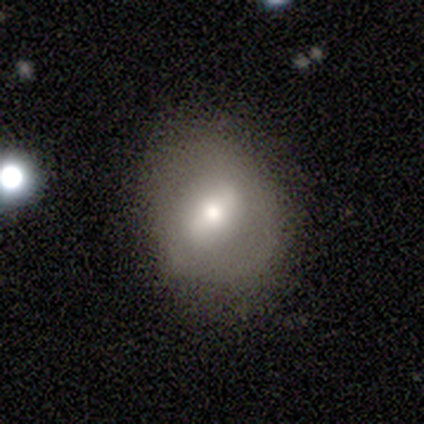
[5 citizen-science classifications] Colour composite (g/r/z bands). It shows a featured or disk galaxy (60%) with a strong bar (100%), no spiral arms (100%) and a moderate central bulge (67%). Merging: none (60%).